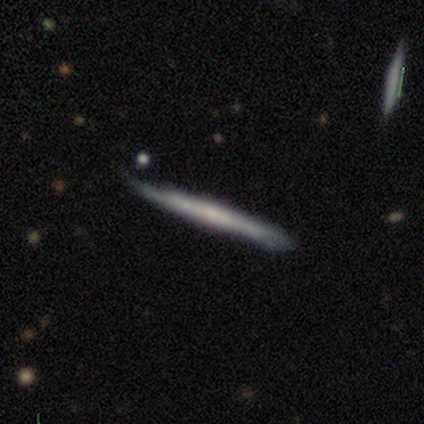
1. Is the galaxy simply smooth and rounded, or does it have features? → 80% featured or disk, 20% smooth, 0% star or artifact.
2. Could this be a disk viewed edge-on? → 50% yes (tied), 50% no (tied).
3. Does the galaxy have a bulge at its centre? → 100% none, 0% boxy, 0% rounded.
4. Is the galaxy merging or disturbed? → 40% none (tied), 40% minor disturbance (tied), 20% merger, 0% major disturbance.